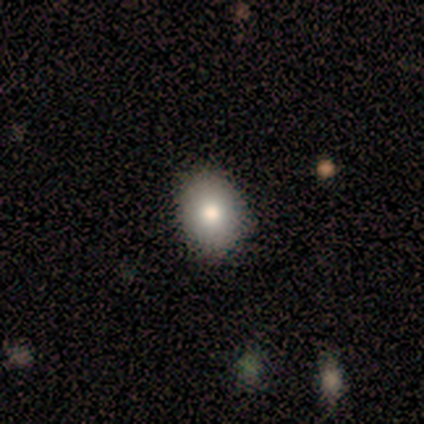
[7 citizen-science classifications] Volunteers were most divided on "smooth or featured": smooth: 71%, featured or disk: 29%, star or artifact: 0%. More confident: how rounded — in between (80%); merging — none (71%).